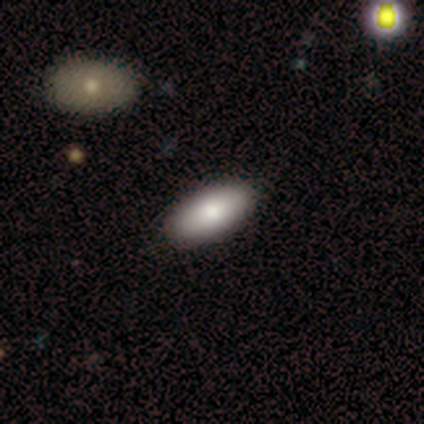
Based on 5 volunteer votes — Volunteers were most divided on "smooth or featured": smooth: 80%, star or artifact: 20%, featured or disk: 0%. More confident: how rounded — in between (100%); merging — none (100%).